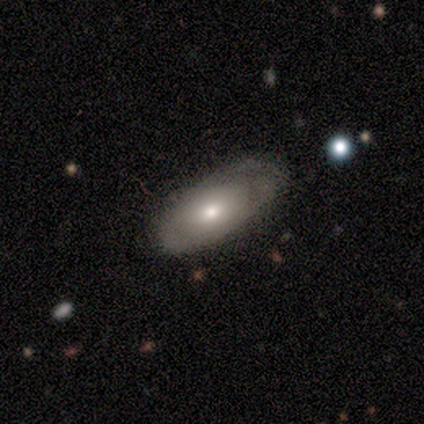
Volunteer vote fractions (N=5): Morphology: type=smooth (60%); roundness=in between (100%); merging=none (80%).